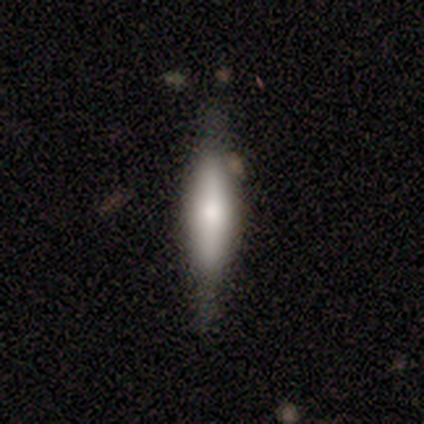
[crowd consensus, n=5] Smooth or featured? featured or disk (60%)
Edge-on disk? yes (67%)
Edge-on bulge? boxy (50%, tied with rounded)
Merging? none (33%, tied with minor disturbance and major disturbance)